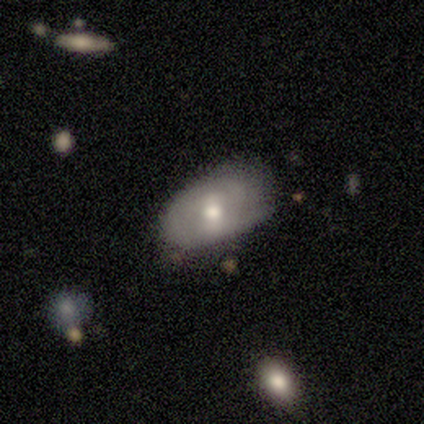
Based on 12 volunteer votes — Overall: smooth (42%, tied with featured or disk). How rounded: in between (80%). Merging: none (50%, tied with minor disturbance).